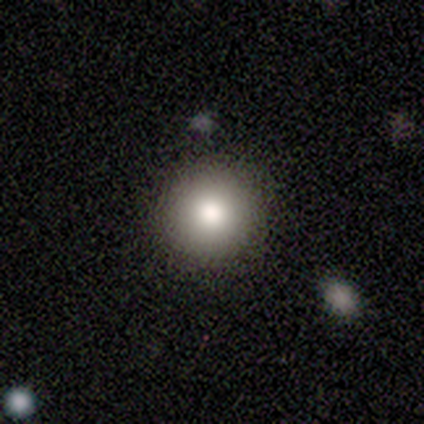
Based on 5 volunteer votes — A smooth galaxy with no disk features (100%) that is round (100%). Merging: none (80%).